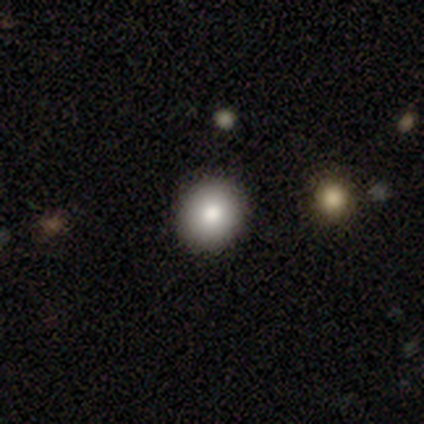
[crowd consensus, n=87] smooth_or_featured: smooth (p=0.84) [alt: star or artifact p=0.09]
how_rounded: round (p=0.88) [alt: in between p=0.12]
merging: none (p=0.94) [alt: minor disturbance p=0.05]